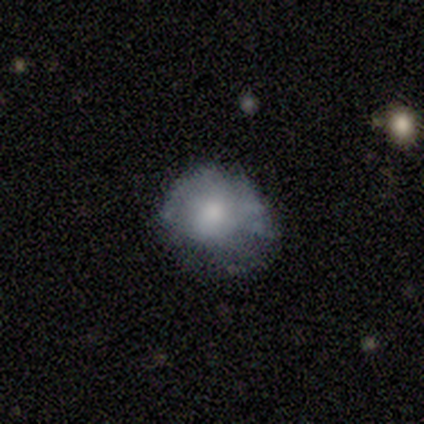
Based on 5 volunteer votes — smooth-or-featured: smooth: 100% | featured or disk: 0% | star or artifact: 0%
  how-rounded: round: 80% | in between: 20% | cigar-shaped: 0%
  merging: minor disturbance: 60% | none: 20% | major disturbance: 20% | merger: 0%